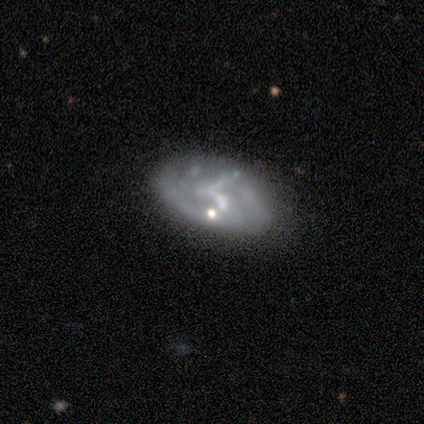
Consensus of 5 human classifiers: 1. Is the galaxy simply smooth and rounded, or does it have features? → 100% featured or disk, 0% smooth, 0% star or artifact.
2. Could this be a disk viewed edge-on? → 80% no, 20% yes.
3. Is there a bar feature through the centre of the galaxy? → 75% weak, 25% strong, 0% no.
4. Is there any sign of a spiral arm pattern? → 75% yes, 25% no.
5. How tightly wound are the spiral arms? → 67% medium, 33% loose, 0% tight.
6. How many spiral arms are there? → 67% 1, 33% can't tell, 0% 2, 0% 3, 0% 4, 0% more than 4.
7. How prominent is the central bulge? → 75% none, 25% small, 0% dominant, 0% large, 0% moderate.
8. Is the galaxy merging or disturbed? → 80% none, 20% merger, 0% minor disturbance, 0% major disturbance.